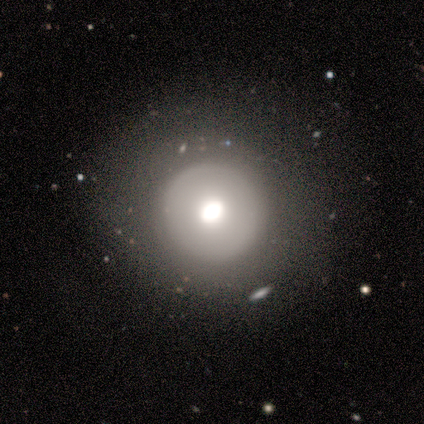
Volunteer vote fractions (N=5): Morphology: type=smooth (60%); roundness=round (100%); merging=none (80%).